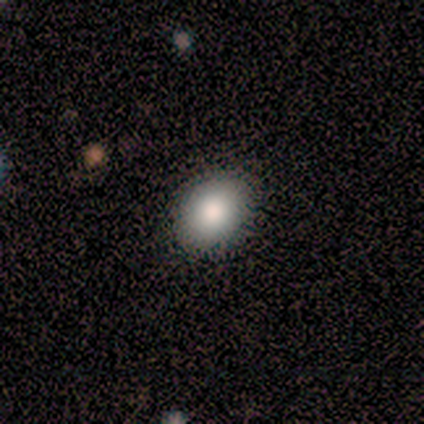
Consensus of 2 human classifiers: Smooth or featured: smooth — 100%
How rounded: round — 50% (tied with in between — 50%)
Merging: none — 100%